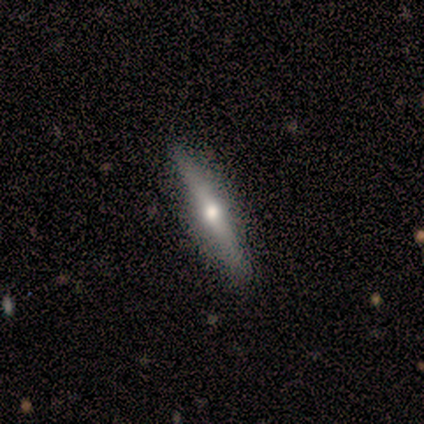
smooth-or-featured: smooth: 60% | featured or disk: 40% | star or artifact: 0%
  how-rounded: cigar-shaped: 100% | round: 0% | in between: 0%
  merging: none: 80% | minor disturbance: 20% | major disturbance: 0% | merger: 0%